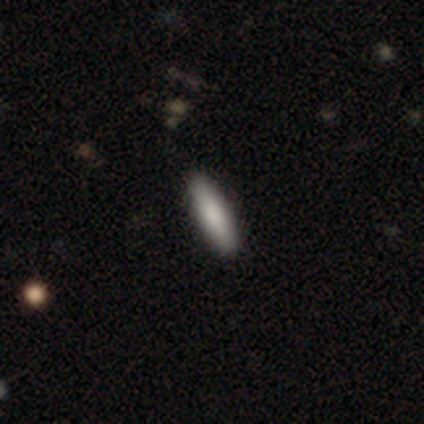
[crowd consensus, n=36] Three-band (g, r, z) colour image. It shows a smooth galaxy with no disk features (83%) that is cigar-shaped (83%). Merging: none (94%).